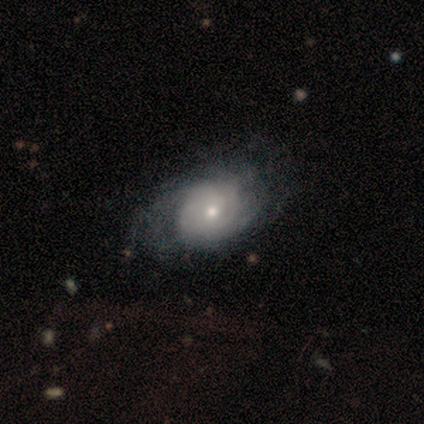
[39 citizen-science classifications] Smooth or featured?
  - featured or disk: 67% *
  - smooth: 31%
  - star or artifact: 3%
Edge-on disk?
  - no: 96% *
  - yes: 4%
Bar?
  - no: 84% *
  - weak: 16%
  - strong: 0%
Spiral arms?
  - yes: 84% *
  - no: 16%
Spiral winding?
  - tight: 57% *
  - medium: 29%
  - loose: 14%
Spiral arm count?
  - can't tell: 71% *
  - 2: 29%
  - 1: 0%
  - 3: 0%
  - 4: 0%
  - more than 4: 0%
Bulge size?
  - small: 48% *
  - moderate: 40%
  - dominant: 4%
  - large: 4%
  - none: 4%
Merging?
  - none: 45% *
  - minor disturbance: 29%
  - major disturbance: 11%
  - merger: 0%